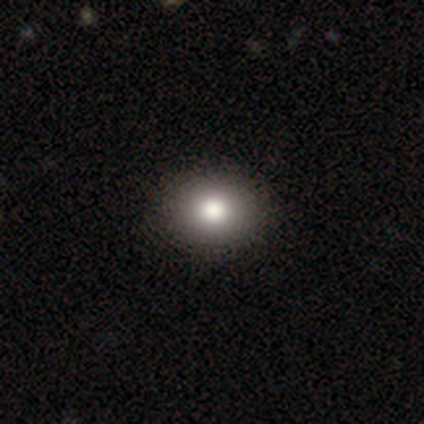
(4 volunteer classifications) Smooth or featured: smooth — 100%
How rounded: round — 75% (in between — 25%)
Merging: none — 75% (minor disturbance — 25%)